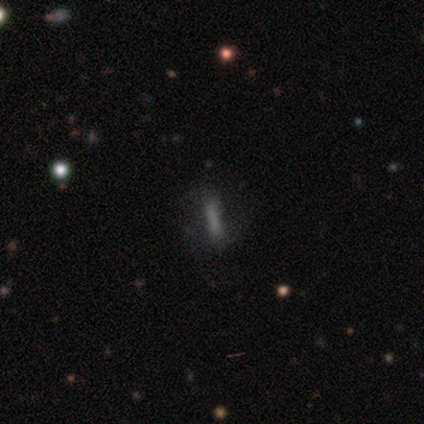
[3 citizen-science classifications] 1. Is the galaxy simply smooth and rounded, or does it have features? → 67% featured or disk, 33% smooth, 0% star or artifact.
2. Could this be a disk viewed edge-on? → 100% yes, 0% no.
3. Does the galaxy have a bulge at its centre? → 100% none, 0% boxy, 0% rounded.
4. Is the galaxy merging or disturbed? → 67% none, 33% major disturbance, 0% minor disturbance, 0% merger.